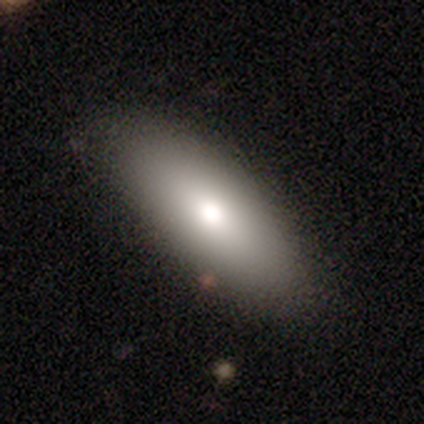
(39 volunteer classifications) smooth-or-featured: smooth: 77% | featured or disk: 15% | star or artifact: 8%
  how-rounded: in between: 77% | cigar-shaped: 23% | round: 0%
  merging: none: 86% | minor disturbance: 14% | major disturbance: 0% | merger: 0%